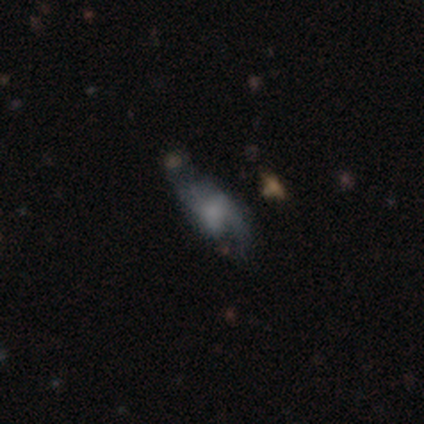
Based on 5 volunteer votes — Smooth or featured?
  - featured or disk: 60% *
  - smooth: 20%
  - star or artifact: 20%
Edge-on disk?
  - no: 100% *
  - yes: 0%
Bar?
  - no: 67% *
  - weak: 33%
  - strong: 0%
Spiral arms?
  - no: 67% *
  - yes: 33%
Bulge size?
  - moderate: 33% * (tied)
  - small: 33% * (tied)
  - none: 33% * (tied)
  - dominant: 0%
  - large: 0%
Merging?
  - none: 50% *
  - minor disturbance: 25%
  - major disturbance: 25%
  - merger: 0%